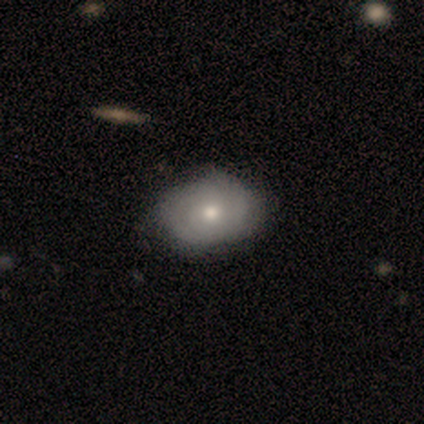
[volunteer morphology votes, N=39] featured or disk 51%, smooth 49%, star or artifact 0%. Down the decision tree: edge-on disk — no (95%); bar — no (100%); spiral arms — yes (58%); spiral arm count — 2 (45%); spiral winding — tight (73%); bulge size — moderate (68%); merging — none (82%).